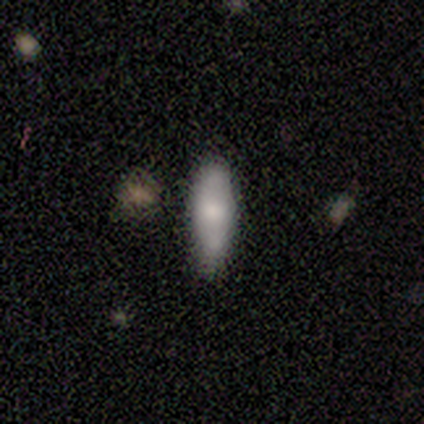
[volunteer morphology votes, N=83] smooth 73%, featured or disk 20%, star or artifact 6%. Down the decision tree: how rounded — cigar-shaped (59%); merging — none (81%).